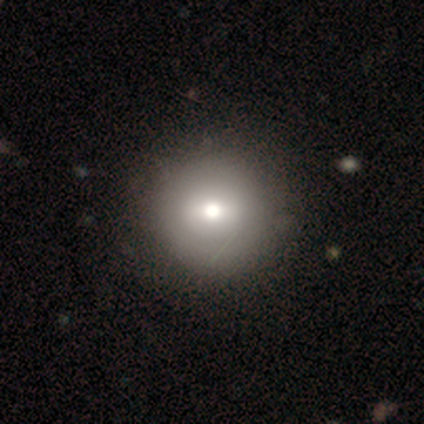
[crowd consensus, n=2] smooth_or_featured: smooth (p=1.00)
how_rounded: round (p=1.00)
merging: none (p=1.00)